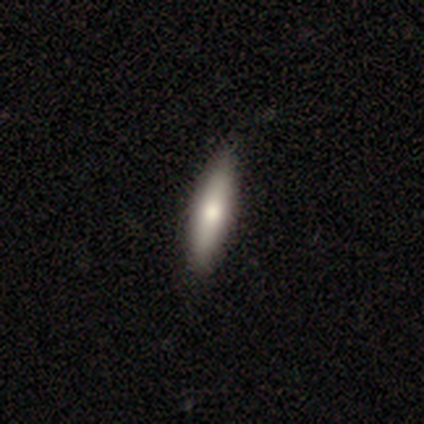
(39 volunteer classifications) smooth 67%, featured or disk 31%, star or artifact 3%. Down the decision tree: how rounded — cigar-shaped (77%); merging — none (58%).